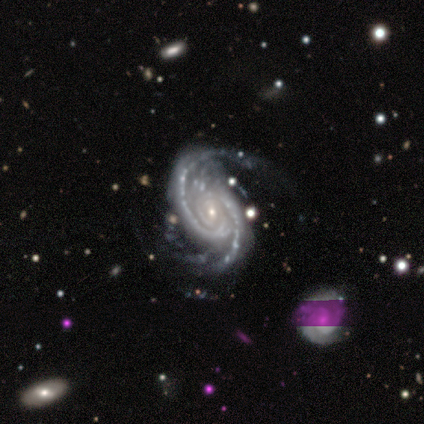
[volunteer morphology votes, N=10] Volunteers were most divided on "merging": none: 50%, minor disturbance: 40%, major disturbance: 10%, merger: 0%. More confident: smooth or featured — featured or disk (100%); edge-on disk — no (100%); spiral arms — yes (100%); bar — no (80%); bulge size — small (80%); spiral arm count — 2 (70%); spiral winding — tight (60%).